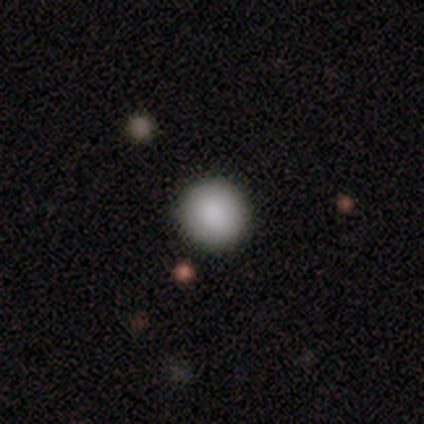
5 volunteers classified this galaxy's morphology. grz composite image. It shows a smooth galaxy with no disk features (100%) that is round (100%). Merging: none (80%).